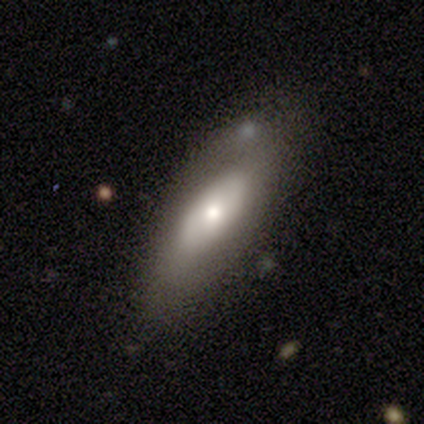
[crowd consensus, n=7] Smooth or featured: smooth — 71% (featured or disk — 14%)
How rounded: in between — 100%
Merging: none — 50% (minor disturbance — 33%)